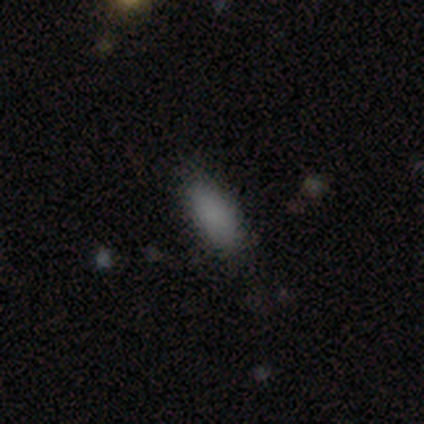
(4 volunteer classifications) Overall: smooth (75%). How rounded: in between (100%). Merging: none (50%; major disturbance 25%).